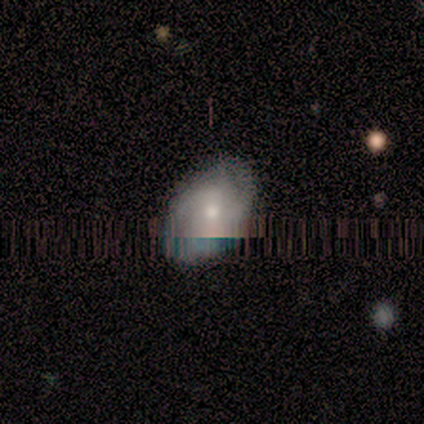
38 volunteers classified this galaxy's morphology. This appears to be a smooth galaxy with no disk features (37%, tied with featured or disk) that is in between round and cigar-shaped (86%). Merging: none (82%).